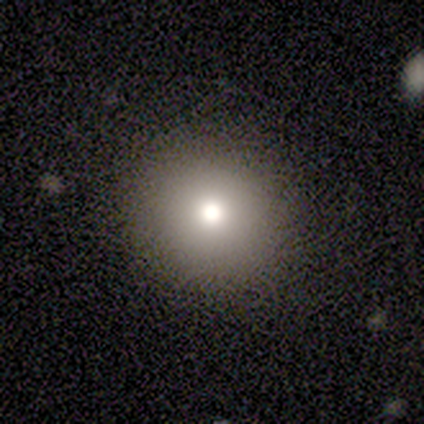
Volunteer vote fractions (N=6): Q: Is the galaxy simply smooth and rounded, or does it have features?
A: smooth — 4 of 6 (67%).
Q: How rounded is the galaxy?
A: round — 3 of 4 (75%).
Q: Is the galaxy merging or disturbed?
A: none — 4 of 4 (100%).